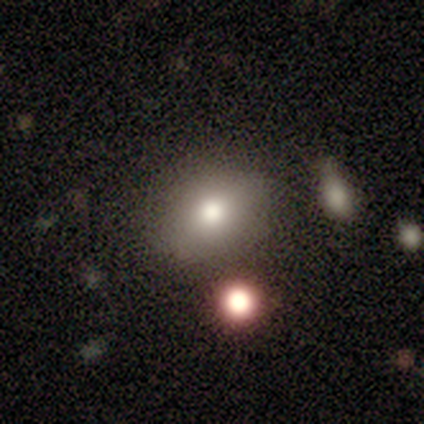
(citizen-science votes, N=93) Smooth or featured: smooth — 70% (star or artifact — 18%)
How rounded: in between — 55% (round — 43%)
Merging: none — 70% (minor disturbance — 16%)